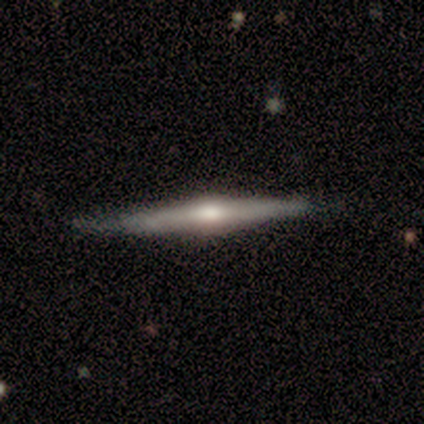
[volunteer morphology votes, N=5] type=smooth (60%); roundness=cigar-shaped (100%); merging=none (60%).